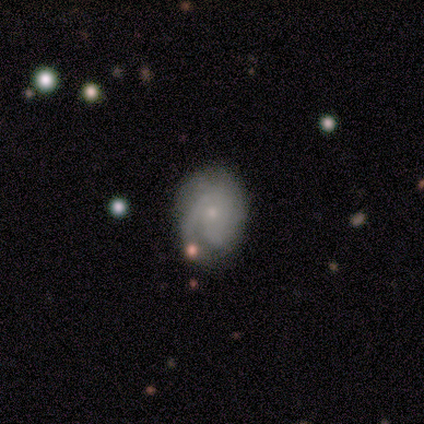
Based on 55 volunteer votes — This appears to be a featured or disk galaxy (71%) with no bar (87%), tight (47%) spiral arms (87%) and a small central bulge (87%). Merging: none (60%).